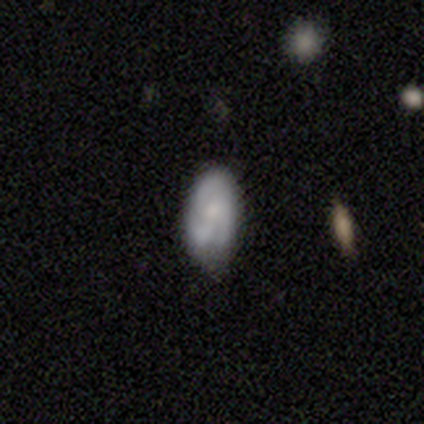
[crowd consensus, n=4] A smooth galaxy with no disk features (50%, tied with featured or disk) that is round (50%, tied with in between). Merging: none (50%, tied with merger).